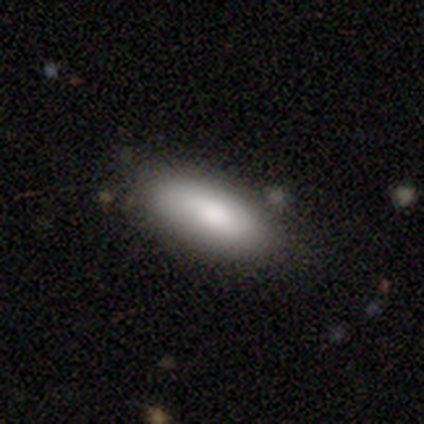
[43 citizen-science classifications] Q: Smooth or featured?
A: smooth (88%); runner-up: featured or disk (7%)
Q: How rounded?
A: in between (79%); runner-up: cigar-shaped (21%)
Q: Merging?
A: none (85%); runner-up: minor disturbance (12%)